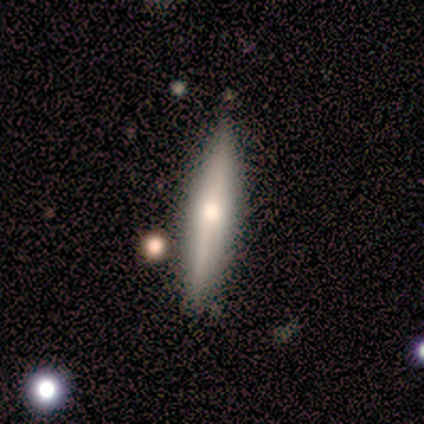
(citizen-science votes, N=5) Smooth or featured? 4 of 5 (80%) said smooth. How rounded? 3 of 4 (75%) said cigar-shaped. Merging? 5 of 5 (100%) said none.